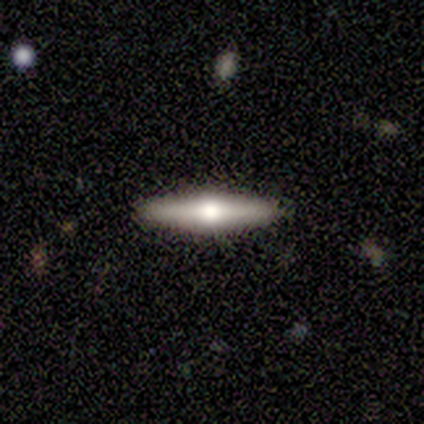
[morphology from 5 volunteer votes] smooth 60%, featured or disk 40%, star or artifact 0%. Down the decision tree: how rounded — cigar-shaped (100%); merging — none (80%).